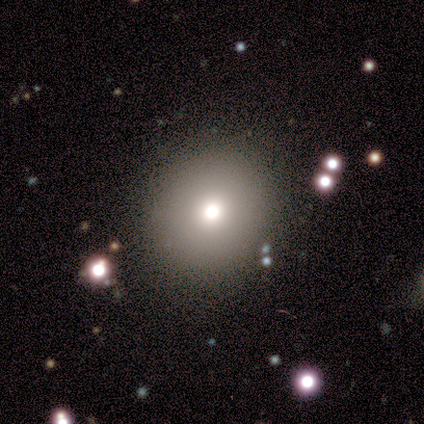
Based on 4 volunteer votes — This is likely a smooth galaxy (75%). How rounded: likely round (67%). Merging: clearly none (100%).